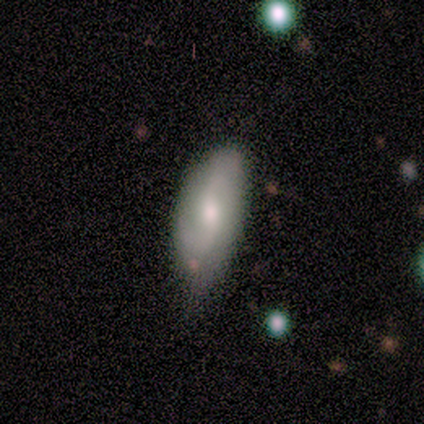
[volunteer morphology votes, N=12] This appears to be a smooth galaxy with no disk features (67%) that is in between round and cigar-shaped (100%). Merging: none (58%).